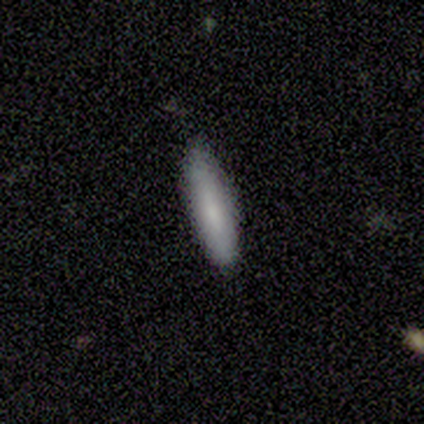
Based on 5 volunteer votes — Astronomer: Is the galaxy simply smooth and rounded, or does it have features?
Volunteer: smooth — 80%.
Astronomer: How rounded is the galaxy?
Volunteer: in between — 50%, tied with cigar-shaped at 50%.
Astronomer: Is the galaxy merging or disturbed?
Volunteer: none — 75%.